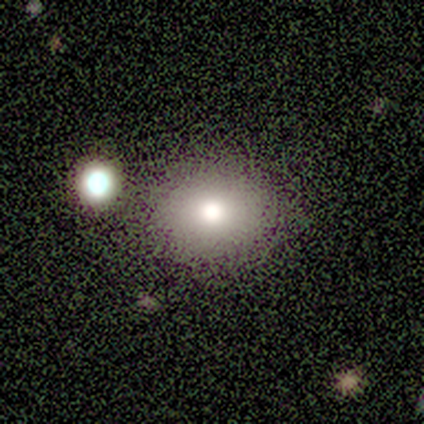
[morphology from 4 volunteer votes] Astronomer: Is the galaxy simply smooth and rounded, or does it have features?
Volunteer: smooth — 75%.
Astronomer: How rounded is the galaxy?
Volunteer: in between — 67%.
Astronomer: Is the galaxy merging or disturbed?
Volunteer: none — 100%.